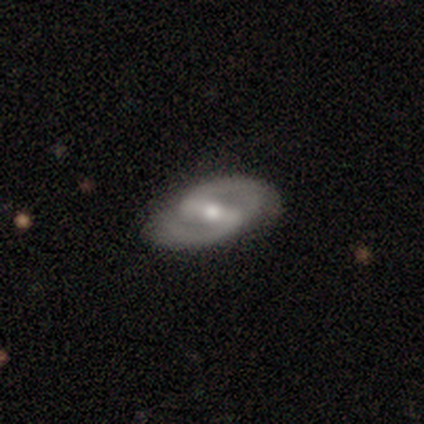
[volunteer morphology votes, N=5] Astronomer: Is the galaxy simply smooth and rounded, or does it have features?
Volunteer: featured or disk — 80%.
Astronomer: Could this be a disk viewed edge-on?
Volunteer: no — 100%.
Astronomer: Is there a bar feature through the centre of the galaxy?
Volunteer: strong — 50%.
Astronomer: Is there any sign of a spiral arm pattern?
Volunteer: yes — 100%.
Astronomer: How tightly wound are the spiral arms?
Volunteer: medium — 75%.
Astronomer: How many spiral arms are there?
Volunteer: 2 — 100%.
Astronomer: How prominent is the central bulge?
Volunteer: moderate — 75%.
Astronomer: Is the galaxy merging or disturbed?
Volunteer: none — 80%.